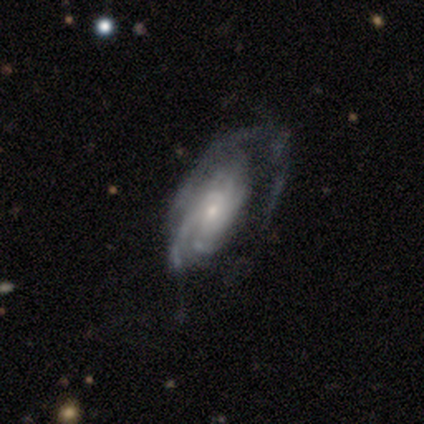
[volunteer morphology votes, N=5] Q: Smooth or featured?
A: featured or disk (100%)
Q: Edge-on disk?
A: no (100%)
Q: Bar?
A: weak (40%); tied with: no (40%)
Q: Spiral arms?
A: yes (100%)
Q: Spiral winding?
A: tight (80%); runner-up: medium (20%)
Q: Spiral arm count?
A: more than 4 (40%); tied with: can't tell (40%)
Q: Bulge size?
A: small (80%); runner-up: dominant (20%)
Q: Merging?
A: none (40%); tied with: major disturbance (40%)